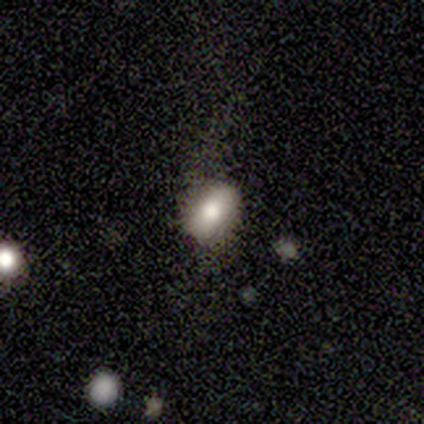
Smooth or featured? 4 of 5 (80%) said smooth. How rounded? 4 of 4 (100%) said in between. Merging? 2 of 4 (50%) said major disturbance.